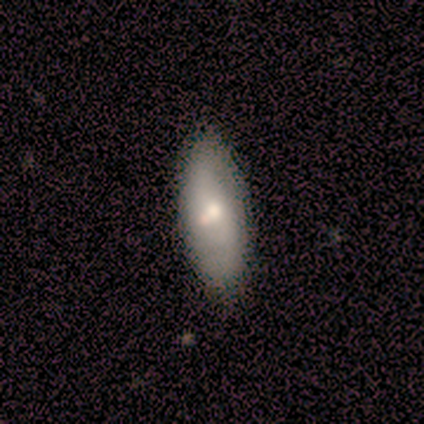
smooth 80%, featured or disk 20%, star or artifact 0%. Down the decision tree: how rounded — in between (100%); merging — none (60%).